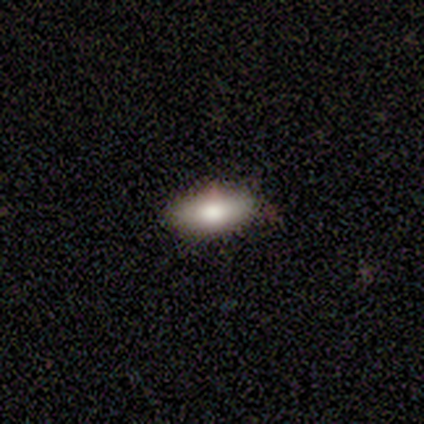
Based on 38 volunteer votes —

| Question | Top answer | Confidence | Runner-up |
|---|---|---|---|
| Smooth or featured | smooth | 92% | featured or disk (5%) |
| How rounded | in between | 94% | cigar-shaped (6%) |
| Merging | none | 78% | minor disturbance (14%) |